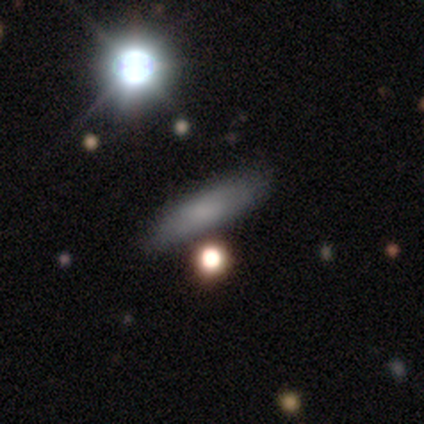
Q: Smooth or featured?
A: smooth (100%)
Q: How rounded?
A: in between (50%); runner-up: cigar-shaped (33%)
Q: Merging?
A: none (50%); runner-up: minor disturbance (33%)